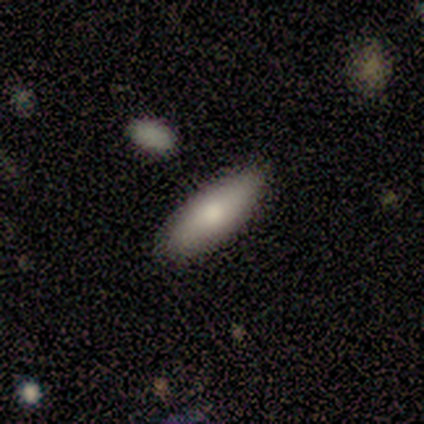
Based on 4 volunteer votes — This appears to be a smooth galaxy with no disk features (100%) that is in between round and cigar-shaped (50%, tied with cigar-shaped). Merging: none (75%).